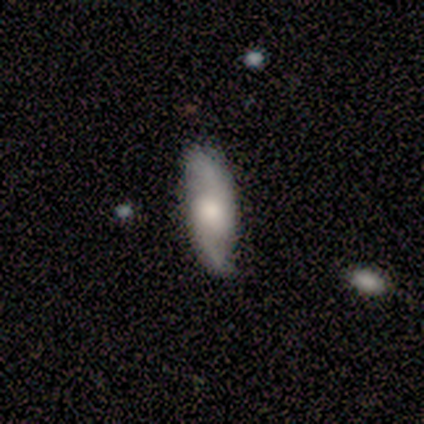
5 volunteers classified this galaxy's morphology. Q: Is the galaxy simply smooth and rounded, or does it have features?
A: featured or disk — 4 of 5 (80%).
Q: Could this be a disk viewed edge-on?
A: no — 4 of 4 (100%).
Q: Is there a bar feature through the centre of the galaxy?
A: weak — 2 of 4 (50%, tied with no).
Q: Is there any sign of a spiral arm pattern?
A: yes — 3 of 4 (75%).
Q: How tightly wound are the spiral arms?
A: loose — 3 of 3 (100%).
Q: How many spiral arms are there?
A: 2 — 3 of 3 (100%).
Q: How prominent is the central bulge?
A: moderate — 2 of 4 (50%, tied with small).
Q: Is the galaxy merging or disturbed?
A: none — 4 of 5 (80%).